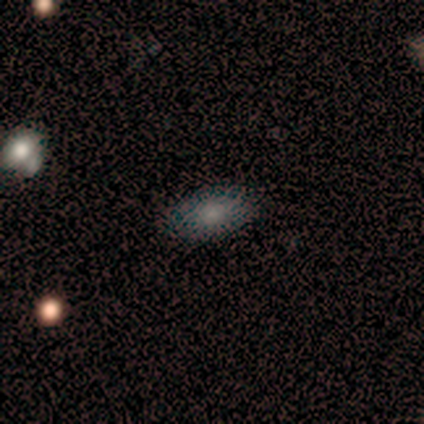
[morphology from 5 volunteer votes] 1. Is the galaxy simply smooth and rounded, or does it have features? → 80% smooth, 20% featured or disk, 0% star or artifact.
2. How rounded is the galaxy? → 100% in between, 0% round, 0% cigar-shaped.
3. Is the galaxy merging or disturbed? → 100% none, 0% minor disturbance, 0% major disturbance, 0% merger.